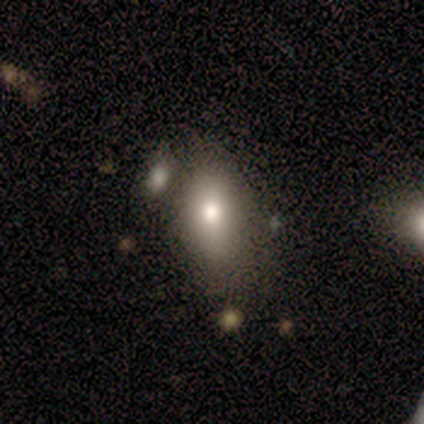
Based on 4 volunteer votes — Smooth or featured? smooth (75%)
How rounded? in between (67%)
Merging? none (50%)